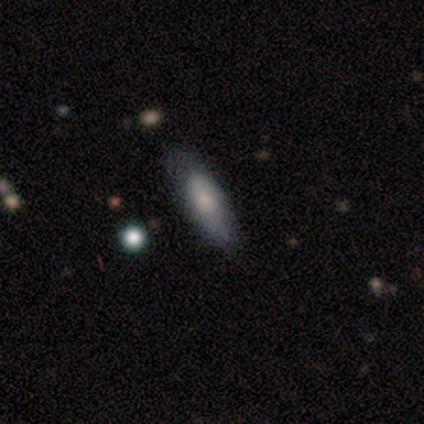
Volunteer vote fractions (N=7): This appears to be a smooth galaxy with no disk features (57%) that is in between round and cigar-shaped (75%). Merging: none (50%, tied with minor disturbance).